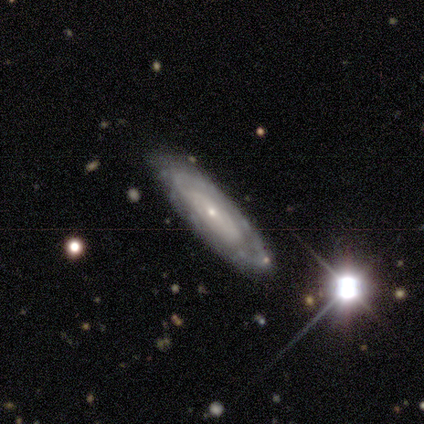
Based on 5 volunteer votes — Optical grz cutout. It shows a featured or disk galaxy (80%) with no bar (75%), tight (50%, tied with medium) spiral arms (50%, tied with no) and a small central bulge (75%). Merging: none (80%).